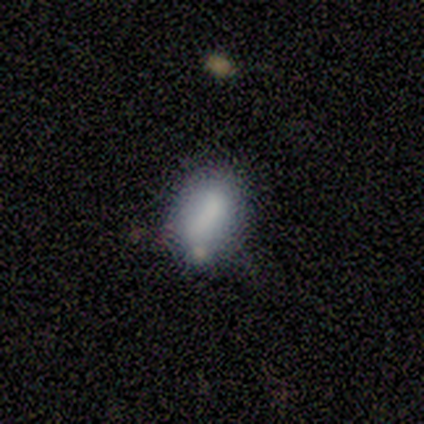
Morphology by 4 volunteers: smooth 50%, featured or disk 25%, star or artifact 25%. Down the decision tree: how rounded — round (50%, tied with in between); merging — minor disturbance (67%).